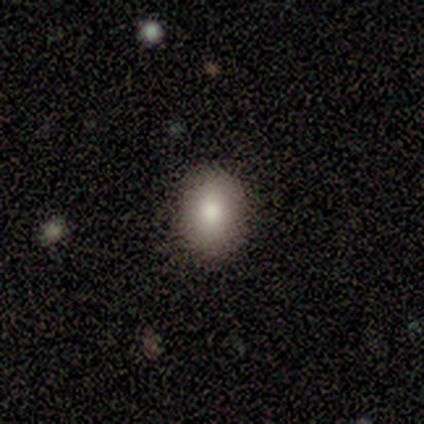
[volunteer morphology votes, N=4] smooth-or-featured: smooth: 75% | star or artifact: 25% | featured or disk: 0%
  how-rounded: in between: 67% | round: 33% | cigar-shaped: 0%
  merging: none: 100% | minor disturbance: 0% | major disturbance: 0% | merger: 0%